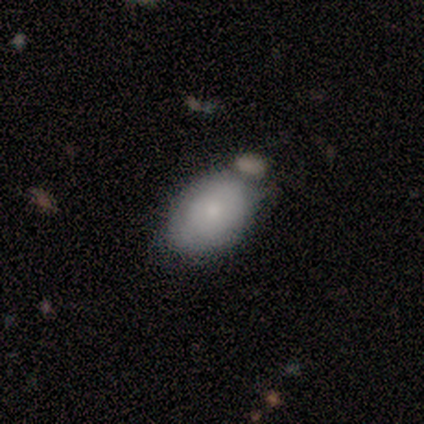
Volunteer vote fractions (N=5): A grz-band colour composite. It shows a smooth galaxy with no disk features (80%) that is in between round and cigar-shaped (100%). Merging: none (80%).